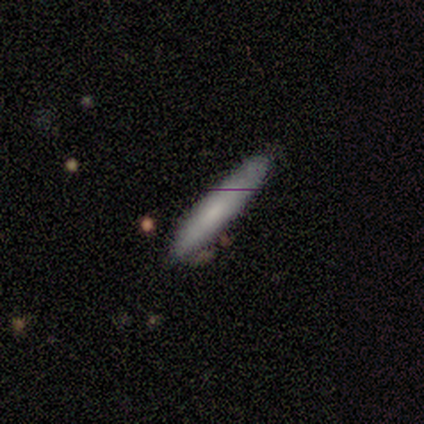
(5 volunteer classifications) Smooth or featured? 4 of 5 (80%) said smooth. How rounded? 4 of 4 (100%) said cigar-shaped. Merging? 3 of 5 (60%) said none.